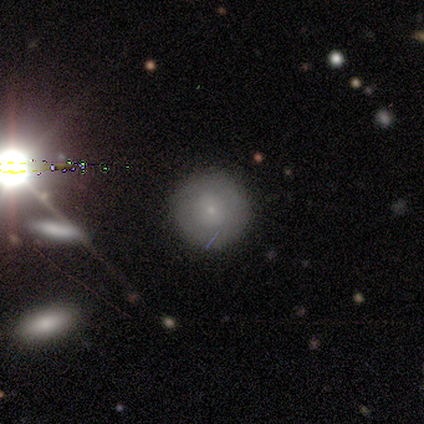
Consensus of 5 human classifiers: Smooth or featured? smooth (40%, tied with star or artifact)
How rounded? round (100%)
Merging? none (67%)